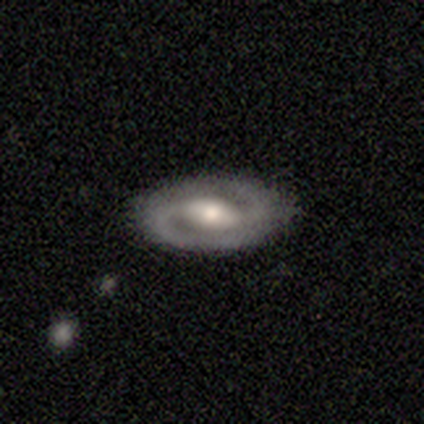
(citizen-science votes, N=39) Smooth or featured: featured or disk — 74% (smooth — 21%)
Edge-on disk: no — 93% (yes — 7%)
Bar: strong — 44% (no — 41%)
Spiral arms: yes — 89% (no — 11%)
Spiral winding: tight — 58% (medium — 38%)
Spiral arm count: 2 — 96% (1 — 4%)
Bulge size: moderate — 78% (large — 15%)
Merging: none — 89% (minor disturbance — 8%)